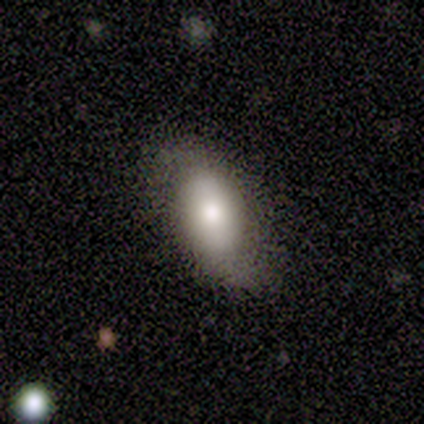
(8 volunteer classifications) Smooth or featured?
  - smooth: 75% *
  - featured or disk: 25%
  - star or artifact: 0%
How rounded?
  - in between: 100% *
  - round: 0%
  - cigar-shaped: 0%
Merging?
  - none: 62% *
  - minor disturbance: 38%
  - major disturbance: 0%
  - merger: 0%